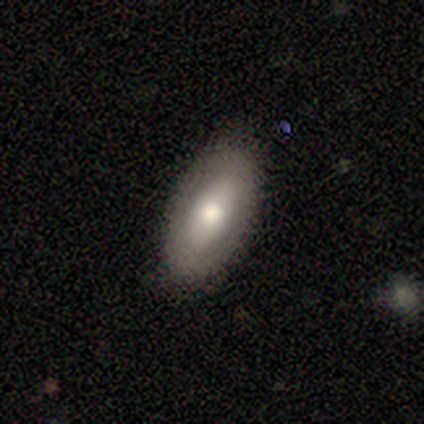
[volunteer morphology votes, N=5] This appears to be a smooth galaxy with no disk features (80%) that is in between round and cigar-shaped (100%). Merging: none (100%).